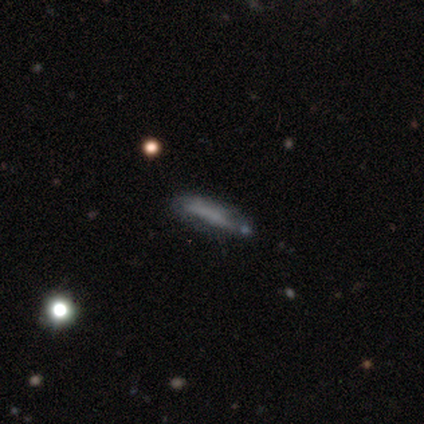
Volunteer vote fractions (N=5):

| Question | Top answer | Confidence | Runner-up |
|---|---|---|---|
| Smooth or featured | smooth | 80% | featured or disk (20%) |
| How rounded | cigar-shaped | 75% | in between (25%) |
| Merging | none | 60% | minor disturbance (40%) |